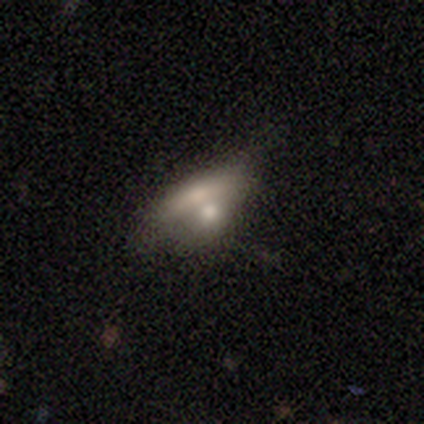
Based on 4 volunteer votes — Overall: smooth (100%). How rounded: in between (50%; round 25%). Merging: merger (100%).